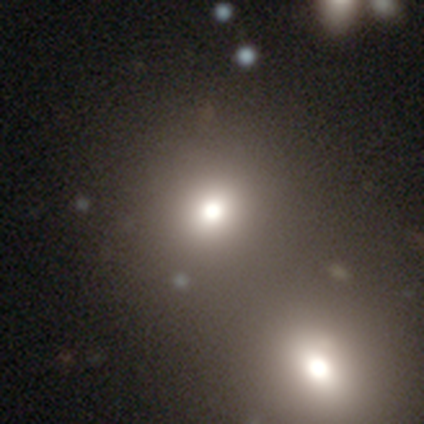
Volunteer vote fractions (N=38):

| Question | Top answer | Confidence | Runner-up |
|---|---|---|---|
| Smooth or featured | smooth | 76% | star or artifact (13%) |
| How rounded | round | 86% | in between (14%) |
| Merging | merger | 58% | — |